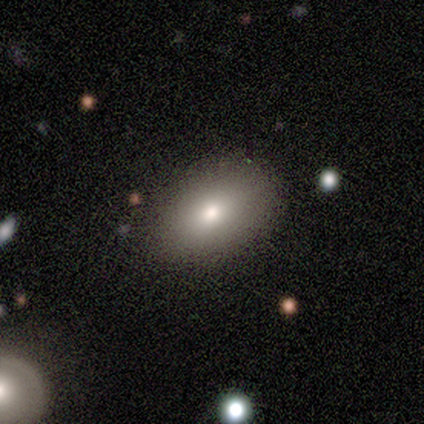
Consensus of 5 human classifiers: smooth 80%, star or artifact 20%, featured or disk 0%. Down the decision tree: how rounded — in between (100%); merging — none (100%).